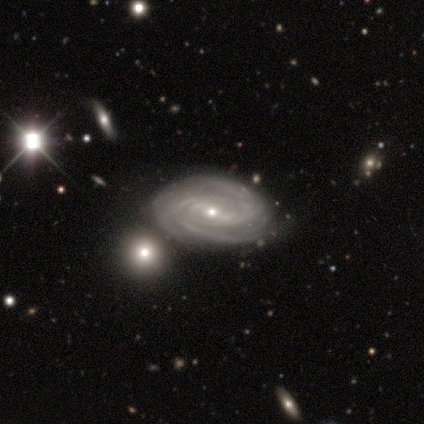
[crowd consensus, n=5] smooth-or-featured: featured or disk: 60% | star or artifact: 40% | smooth: 0%
  disk-edge-on: no: 100% | yes: 0%
    bar: no: 100% | strong: 0% | weak: 0%
    has-spiral-arms: yes: 100% | no: 0%
      spiral-winding: tight: 67% | medium: 33% | loose: 0%
      spiral-arm-count: 2: 33% (tied) | more than 4: 33% (tied) | can't tell: 33% (tied) | 1: 0% | 3: 0% | 4: 0%
    bulge-size: small: 67% | moderate: 33% | dominant: 0% | large: 0% | none: 0%
  merging: none: 100% | minor disturbance: 0% | major disturbance: 0% | merger: 0%